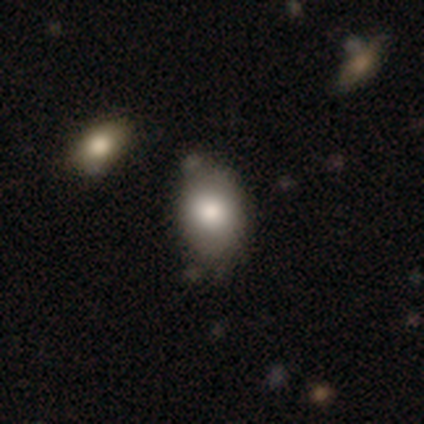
This is clearly a smooth galaxy (100%). How rounded: clearly in between (80%). Merging: clearly none (100%).